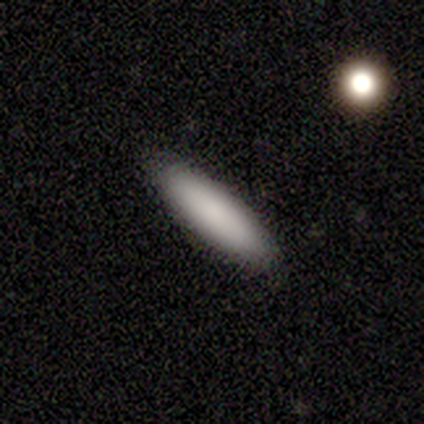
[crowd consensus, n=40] This appears to be a smooth galaxy with no disk features (85%) that is cigar-shaped (59%). Merging: none (92%).